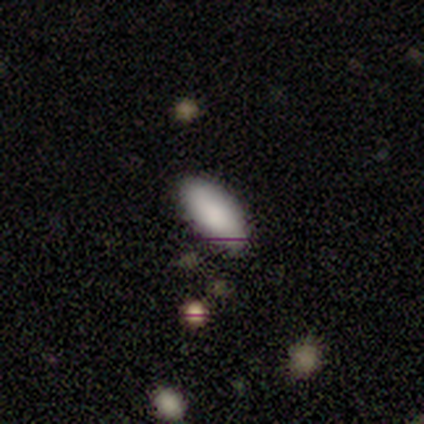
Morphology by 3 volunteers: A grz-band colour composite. It shows a smooth galaxy with no disk features (100%) that is in between round and cigar-shaped (100%). Merging: none (100%).